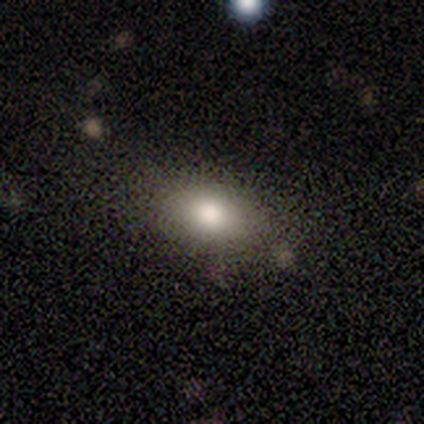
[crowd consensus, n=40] A smooth galaxy with no disk features (78%) that is in between round and cigar-shaped (77%).

Vote fractions:
- Smooth or featured? smooth: 78% / star or artifact: 12% / featured or disk: 10%
- How rounded? in between: 77% / round: 19% / cigar-shaped: 3%
- Merging? none: 80% / minor disturbance: 17% / merger: 3% / major disturbance: 0%